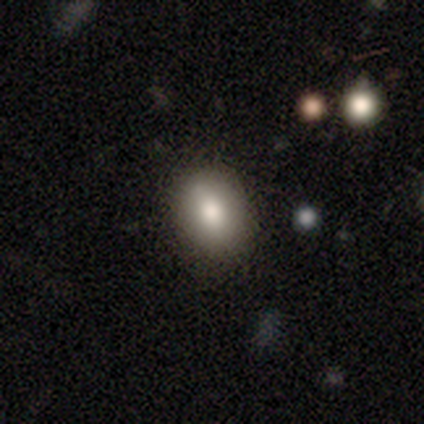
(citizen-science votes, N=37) smooth 84%, featured or disk 11%, star or artifact 5%. Down the decision tree: how rounded — in between (71%); merging — none (83%).